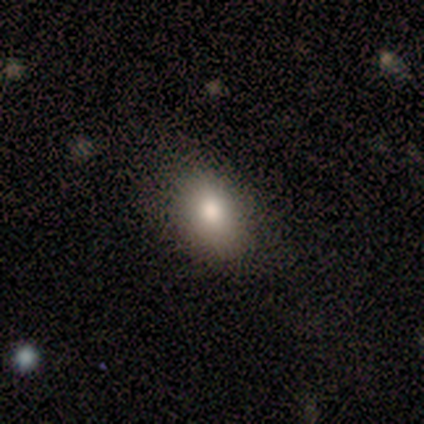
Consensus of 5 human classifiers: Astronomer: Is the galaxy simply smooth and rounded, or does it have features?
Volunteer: smooth — 80%.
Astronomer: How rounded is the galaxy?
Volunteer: in between — 100%.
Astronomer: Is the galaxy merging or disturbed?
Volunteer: none — 100%.